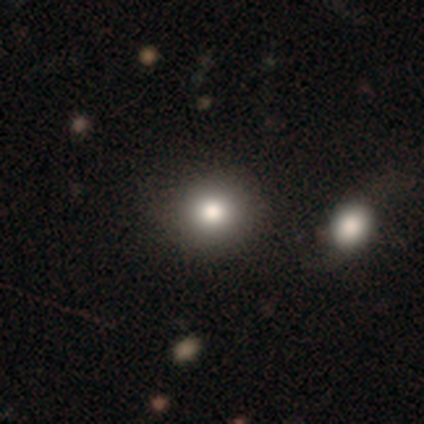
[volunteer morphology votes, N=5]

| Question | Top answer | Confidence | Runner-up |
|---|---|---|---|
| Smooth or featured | smooth | 100% | — |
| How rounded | round | 80% | in between (20%) |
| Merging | none | 60% | minor disturbance (20%) |